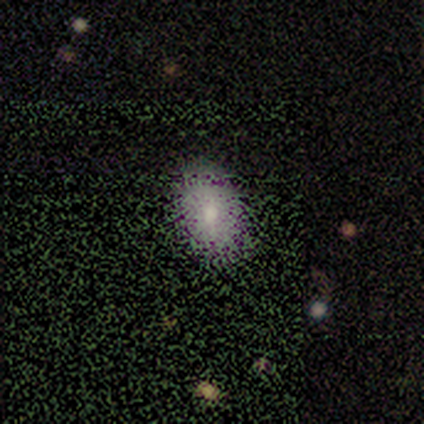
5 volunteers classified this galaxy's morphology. This appears to be a smooth galaxy with no disk features (60%) that is in between round and cigar-shaped (100%). Merging: none (60%).